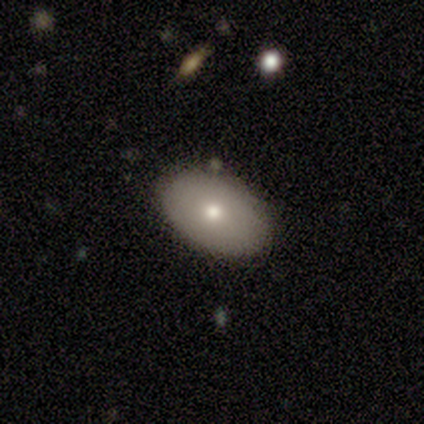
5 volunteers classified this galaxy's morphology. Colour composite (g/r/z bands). It shows a smooth galaxy with no disk features (100%) that is in between round and cigar-shaped (100%). Merging: none (80%).